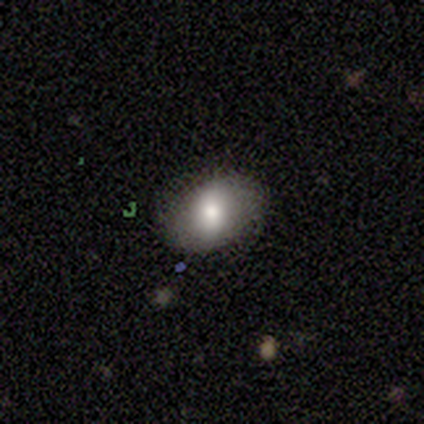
A smooth galaxy with no disk features (100%) that is in between round and cigar-shaped (80%).

Vote fractions:
- Smooth or featured? smooth: 100% / featured or disk: 0% / star or artifact: 0%
- How rounded? in between: 80% / round: 20% / cigar-shaped: 0%
- Merging? none: 100% / minor disturbance: 0% / major disturbance: 0% / merger: 0%